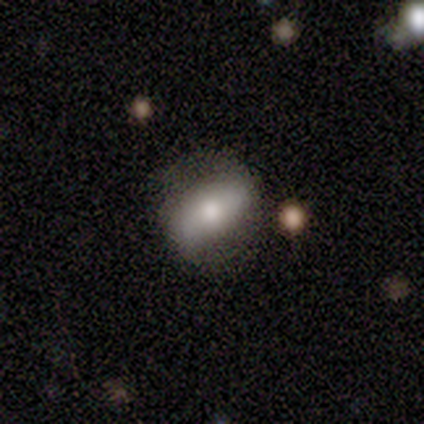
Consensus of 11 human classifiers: Smooth or featured? 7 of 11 (64%) said smooth. How rounded? 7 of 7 (100%) said in between. Merging? 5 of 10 (50%) said none.